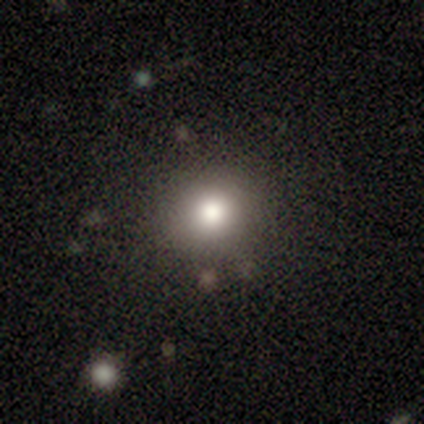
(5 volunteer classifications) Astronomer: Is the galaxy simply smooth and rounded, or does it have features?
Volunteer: smooth — 100%.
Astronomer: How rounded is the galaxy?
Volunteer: round — 80%.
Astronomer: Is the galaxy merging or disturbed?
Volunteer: none — 100%.